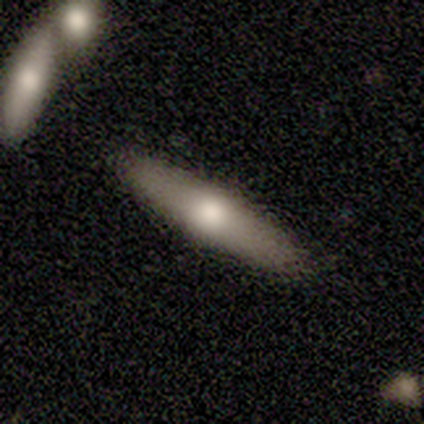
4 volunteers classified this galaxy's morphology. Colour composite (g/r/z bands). It shows a star or artifact, not a galaxy (50%).